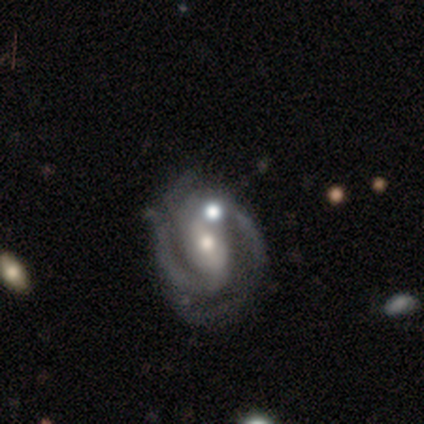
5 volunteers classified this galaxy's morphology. A featured or disk galaxy (100%) with a strong bar (60%), 2 (80%) medium (60%) spiral arms (100%) and a small central bulge (60%). Merging: none (40%, tied with merger).